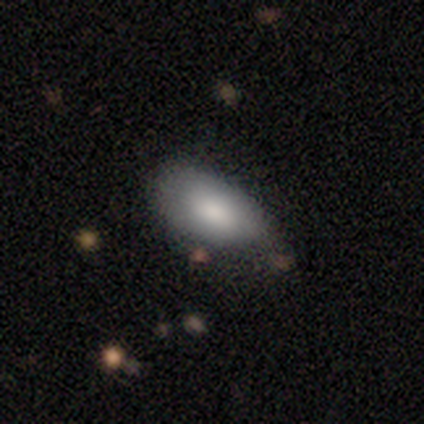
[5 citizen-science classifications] smooth-or-featured: smooth: 80% | featured or disk: 20% | star or artifact: 0%
  how-rounded: in between: 100% | round: 0% | cigar-shaped: 0%
  merging: none: 80% | major disturbance: 20% | minor disturbance: 0% | merger: 0%